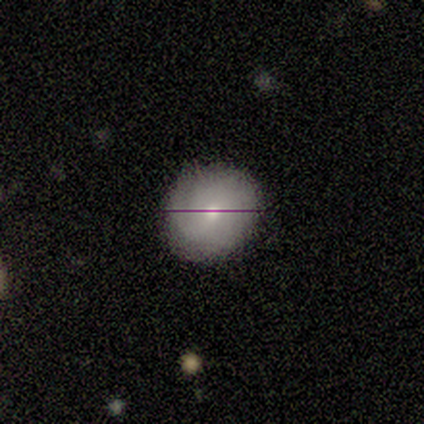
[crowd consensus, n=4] A smooth galaxy with no disk features (100%) that is round (75%).

Vote fractions:
- Smooth or featured? smooth: 100% / featured or disk: 0% / star or artifact: 0%
- How rounded? round: 75% / in between: 25% / cigar-shaped: 0%
- Merging? none: 75% / minor disturbance: 25% / major disturbance: 0% / merger: 0%